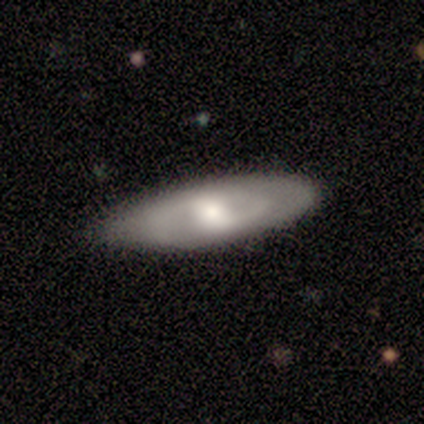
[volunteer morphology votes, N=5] Q: Smooth or featured?
A: featured or disk (100%)
Q: Edge-on disk?
A: no (100%)
Q: Bar?
A: strong (40%); tied with: weak (40%)
Q: Spiral arms?
A: yes (100%)
Q: Spiral winding?
A: medium (100%)
Q: Spiral arm count?
A: 2 (60%); runner-up: can't tell (40%)
Q: Bulge size?
A: moderate (80%); runner-up: large (20%)
Q: Merging?
A: none (80%); runner-up: minor disturbance (20%)